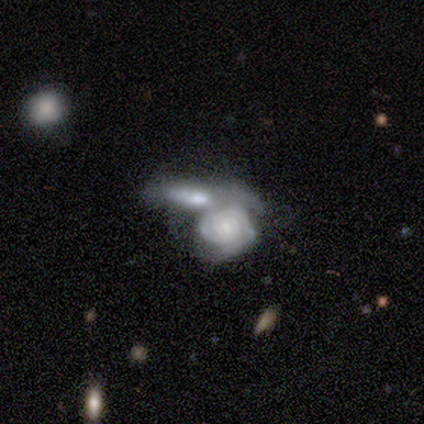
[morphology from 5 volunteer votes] Smooth or featured: featured or disk — 80% (smooth — 20%)
Edge-on disk: no — 75% (yes — 25%)
Bar: strong — 33% (tied with weak — 33%; no — 33%)
Spiral arms: yes — 100%
Spiral winding: tight — 67% (medium — 33%)
Spiral arm count: 2 — 33% (tied with 3 — 33%; can't tell — 33%)
Bulge size: moderate — 67% (small — 33%)
Merging: merger — 100%